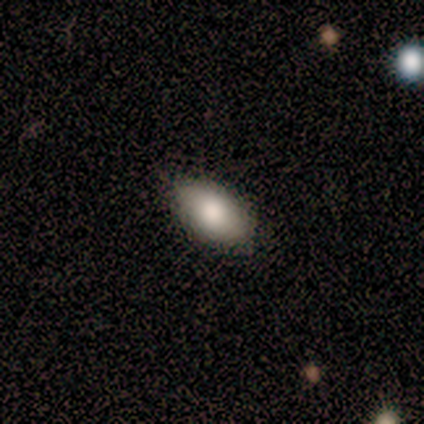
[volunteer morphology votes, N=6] Overall: smooth (100%). How rounded: in between (100%). Merging: none (100%).